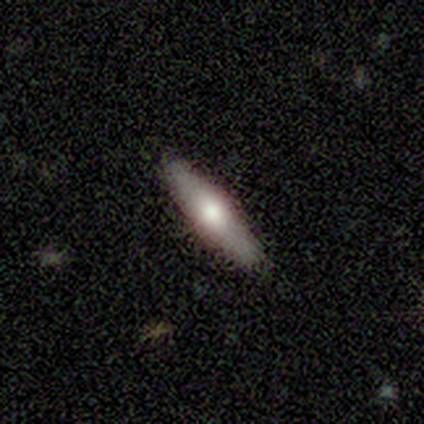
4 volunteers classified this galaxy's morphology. Q: Smooth or featured?
A: featured or disk (75%); runner-up: smooth (25%)
Q: Edge-on disk?
A: yes (100%)
Q: Edge-on bulge?
A: rounded (100%)
Q: Merging?
A: none (100%)